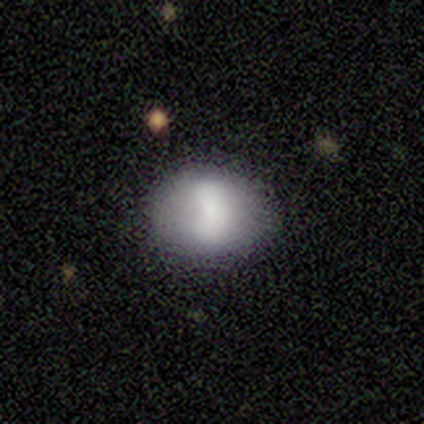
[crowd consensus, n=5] A smooth galaxy with no disk features (80%) that is round (50%, tied with in between). Merging: none (80%).